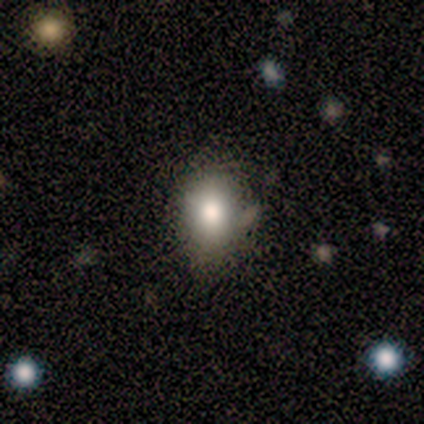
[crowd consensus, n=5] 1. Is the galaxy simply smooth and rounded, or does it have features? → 60% smooth, 20% featured or disk, 20% star or artifact.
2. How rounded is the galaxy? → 67% in between, 33% round, 0% cigar-shaped.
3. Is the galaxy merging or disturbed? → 50% none, 25% major disturbance, 25% merger, 0% minor disturbance.